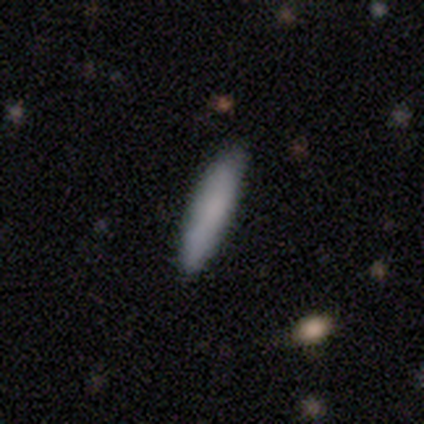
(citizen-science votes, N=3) A smooth galaxy with no disk features (100%) that is cigar-shaped (100%). Merging: none (100%).